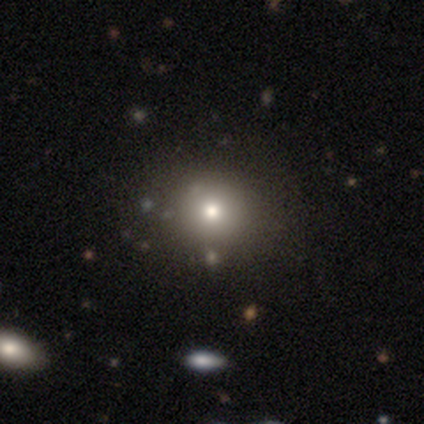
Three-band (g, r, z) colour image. It shows a smooth galaxy with no disk features (80%) that is round (75%). Merging: none (100%).